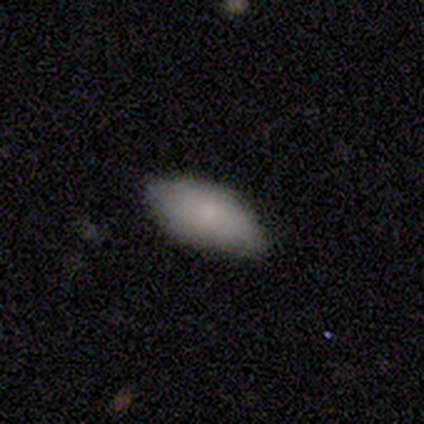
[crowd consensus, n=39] Smooth or featured: smooth — 77% (featured or disk — 13%)
How rounded: in between — 90% (cigar-shaped — 7%)
Merging: none — 80% (minor disturbance — 17%)